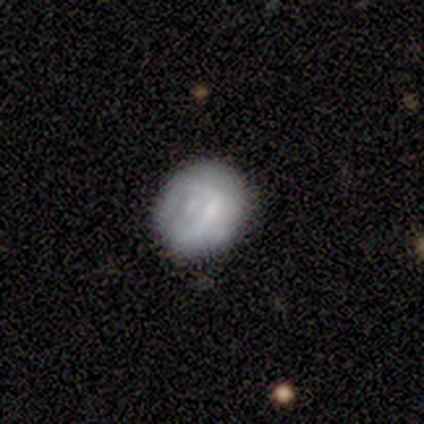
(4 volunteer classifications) Overall: featured or disk (75%). Edge-on disk: no (100%). Bar: strong (33%, tied with weak and no). Spiral arms: no (67%; yes 33%). Bulge size: small (67%; moderate 33%). Merging: none (75%).